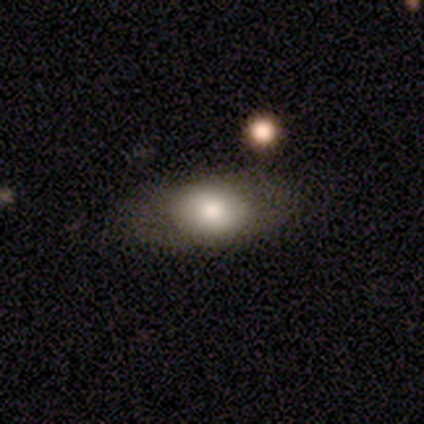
Smooth or featured? 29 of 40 (72%) said smooth. How rounded? 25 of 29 (86%) said in between. Merging? 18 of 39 (46%) said none.